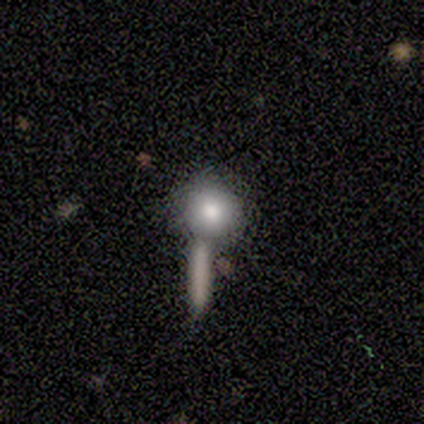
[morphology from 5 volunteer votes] A smooth galaxy with no disk features (60%) that is round (100%).

Vote fractions:
- Smooth or featured? smooth: 60% / featured or disk: 20% / star or artifact: 20%
- How rounded? round: 100% / in between: 0% / cigar-shaped: 0%
- Merging? none: 100% / minor disturbance: 0% / major disturbance: 0% / merger: 0%